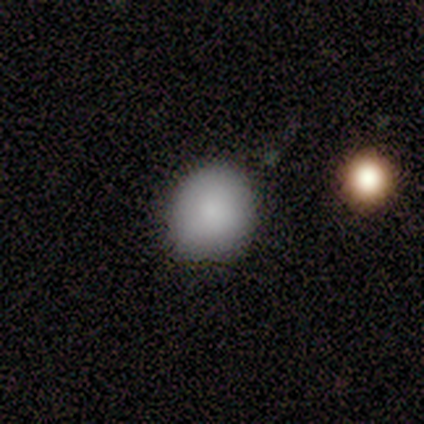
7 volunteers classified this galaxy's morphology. Smooth or featured? 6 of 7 (86%) said smooth. How rounded? 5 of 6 (83%) said round. Merging? 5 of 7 (71%) said none.